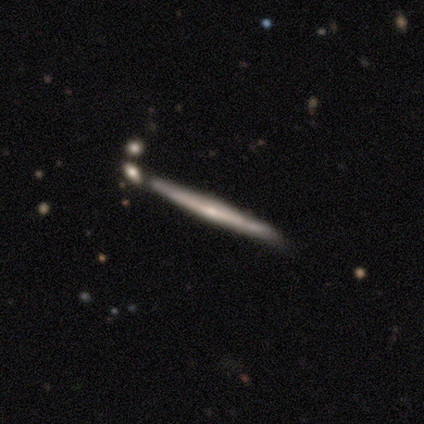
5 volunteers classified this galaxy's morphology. Smooth or featured? 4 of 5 (80%) said featured or disk. Edge-on disk? 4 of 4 (100%) said yes. Edge-on bulge? 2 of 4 (50%, tied with rounded) said none. Merging? 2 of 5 (40%, tied with minor disturbance) said none.